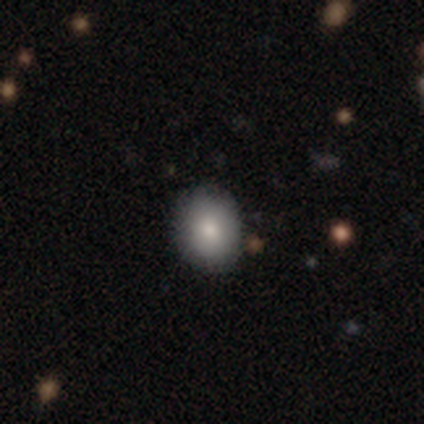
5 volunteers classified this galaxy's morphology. Q: Smooth or featured?
A: smooth (80%); runner-up: star or artifact (20%)
Q: How rounded?
A: round (75%); runner-up: in between (25%)
Q: Merging?
A: none (100%)